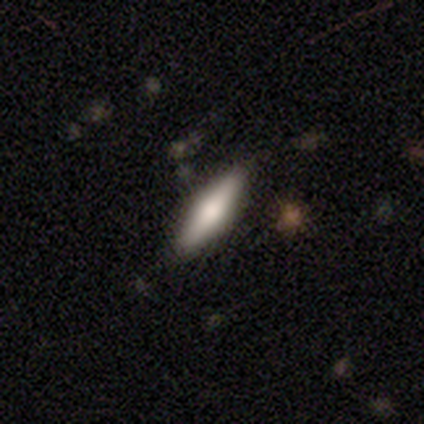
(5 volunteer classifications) Q: Smooth or featured?
A: featured or disk (80%); runner-up: smooth (20%)
Q: Edge-on disk?
A: yes (100%)
Q: Edge-on bulge?
A: rounded (75%); runner-up: boxy (25%)
Q: Merging?
A: none (100%)